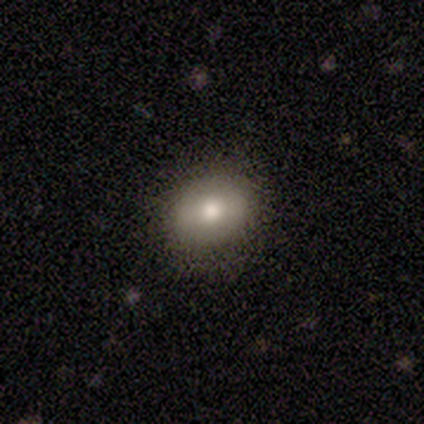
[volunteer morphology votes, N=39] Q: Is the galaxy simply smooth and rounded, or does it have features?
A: smooth — 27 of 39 (69%).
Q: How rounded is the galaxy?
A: round — 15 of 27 (56%).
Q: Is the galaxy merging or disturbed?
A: none — 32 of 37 (86%).